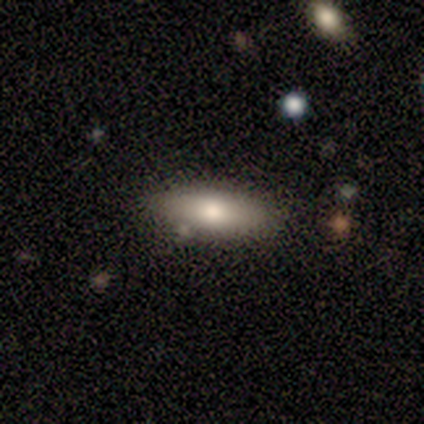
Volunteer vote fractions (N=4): smooth_or_featured: smooth (p=0.75) [alt: featured or disk p=0.25]
how_rounded: cigar-shaped (p=0.67) [alt: in between p=0.33]
merging: none (p=0.75) [alt: major disturbance p=0.25]